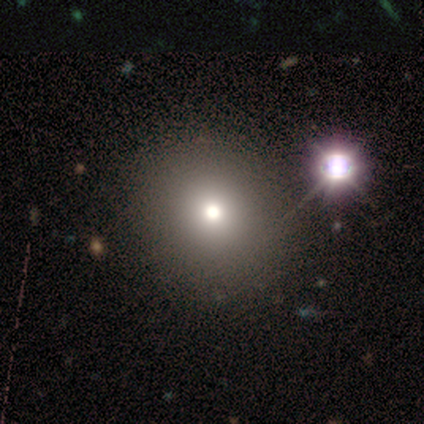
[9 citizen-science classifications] smooth-or-featured: smooth: 67% | featured or disk: 33% | star or artifact: 0%
  how-rounded: round: 100% | in between: 0% | cigar-shaped: 0%
  merging: none: 78% | minor disturbance: 11% | merger: 11% | major disturbance: 0%